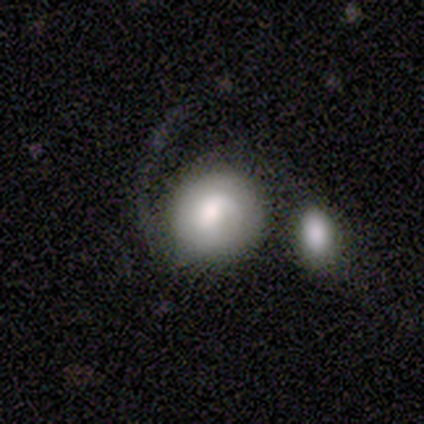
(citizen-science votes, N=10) Q: Smooth or featured?
A: smooth (40%); tied with: featured or disk (40%)
Q: How rounded?
A: round (100%)
Q: Merging?
A: none (50%); runner-up: minor disturbance (25%)